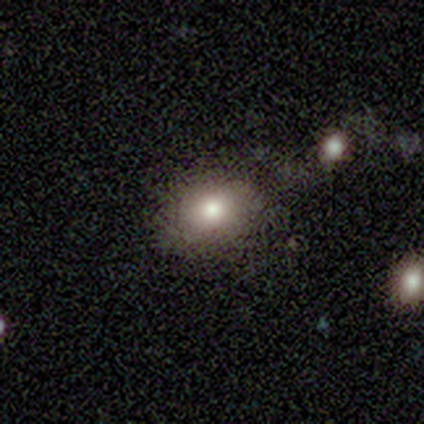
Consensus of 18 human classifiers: A smooth galaxy with no disk features (67%) that is in between round and cigar-shaped (83%). Merging: none (92%).